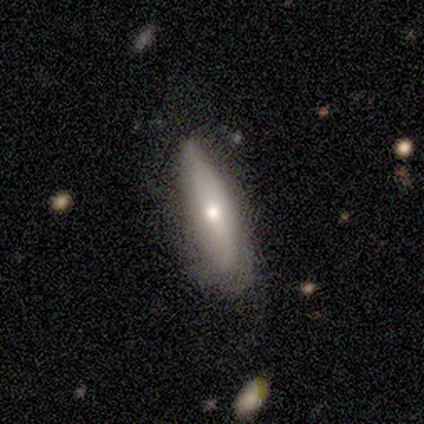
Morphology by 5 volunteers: Q: Smooth or featured?
A: smooth (80%); runner-up: featured or disk (20%)
Q: How rounded?
A: cigar-shaped (50%); runner-up: round (25%)
Q: Merging?
A: none (80%); runner-up: major disturbance (20%)